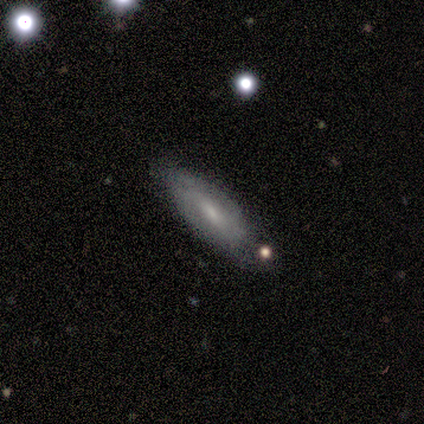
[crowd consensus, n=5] This appears to be a featured or disk galaxy (80%) viewed edge-on (50%, tied with no) with no central bulge (100%). Merging: none (60%).